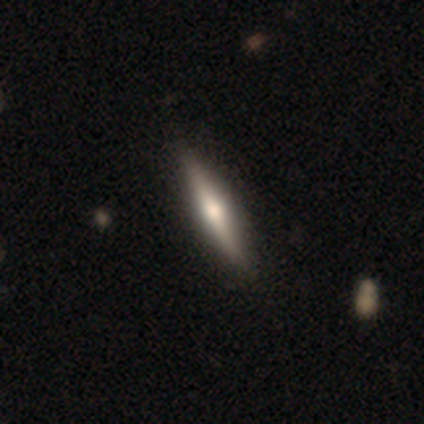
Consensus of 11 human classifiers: This is likely a featured or disk galaxy (73%). It is clearly viewed edge-on (88%). Edge-on bulge: clearly rounded (86%). Merging: likely none (73%).